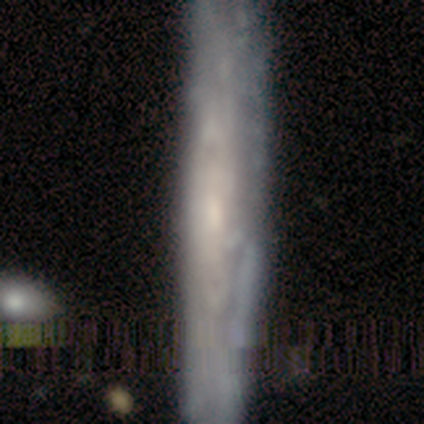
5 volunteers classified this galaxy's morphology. Smooth or featured? featured or disk (40%, tied with star or artifact)
Edge-on disk? yes (50%, tied with no)
Edge-on bulge? none (100%)
Merging? none (100%)